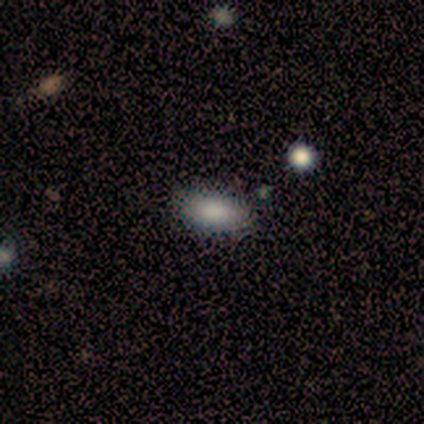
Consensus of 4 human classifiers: A smooth galaxy with no disk features (100%) that is in between round and cigar-shaped (100%). Merging: none (100%).